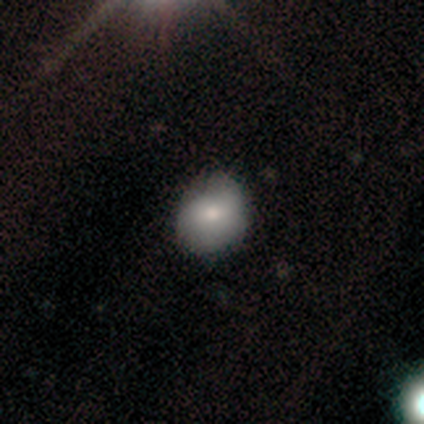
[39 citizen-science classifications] A smooth galaxy with no disk features (64%) that is round (68%). Merging: none (59%).